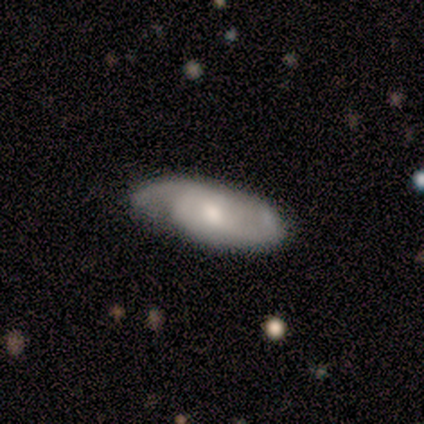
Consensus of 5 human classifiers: Q: Smooth or featured?
A: featured or disk (80%); runner-up: smooth (20%)
Q: Edge-on disk?
A: no (100%)
Q: Bar?
A: weak (50%); tied with: no (50%)
Q: Spiral arms?
A: yes (100%)
Q: Spiral winding?
A: tight (50%); tied with: medium (50%)
Q: Spiral arm count?
A: 2 (50%); tied with: 3 (50%)
Q: Bulge size?
A: moderate (75%); runner-up: small (25%)
Q: Merging?
A: none (100%)